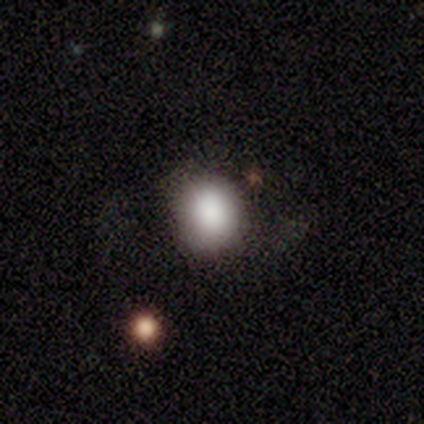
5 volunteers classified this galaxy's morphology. This is clearly a smooth galaxy (80%). How rounded: clearly round (100%). Merging: possibly none (50%).